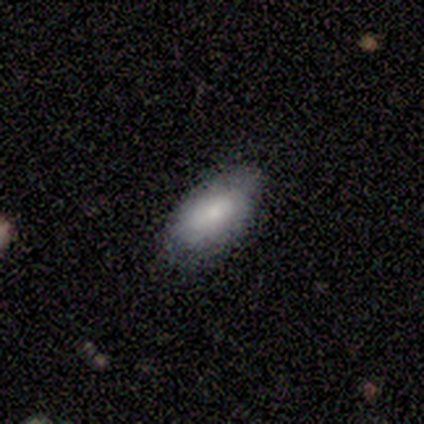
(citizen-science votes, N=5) Smooth or featured? smooth (100%)
How rounded? in between (100%)
Merging? none (60%)